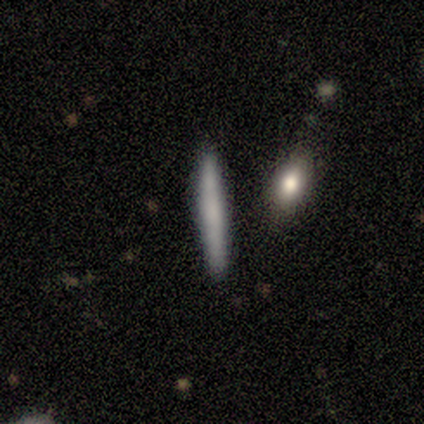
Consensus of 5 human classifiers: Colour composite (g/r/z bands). It shows a smooth galaxy with no disk features (60%) that is cigar-shaped (100%). Merging: none (100%).